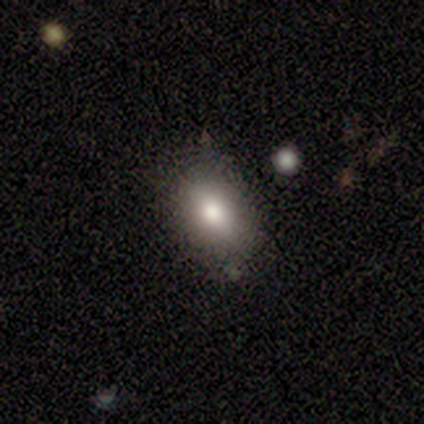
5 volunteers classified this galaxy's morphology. smooth-or-featured: smooth: 80% | star or artifact: 20% | featured or disk: 0%
  how-rounded: in between: 100% | round: 0% | cigar-shaped: 0%
  merging: minor disturbance: 75% | major disturbance: 25% | none: 0% | merger: 0%